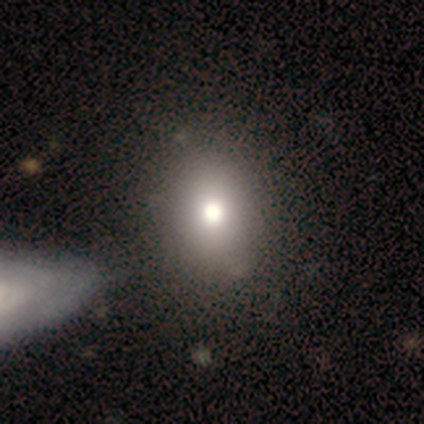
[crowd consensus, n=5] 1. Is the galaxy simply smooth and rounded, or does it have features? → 80% smooth, 20% star or artifact, 0% featured or disk.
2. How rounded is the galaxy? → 75% in between, 25% round, 0% cigar-shaped.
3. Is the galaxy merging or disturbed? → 100% none, 0% minor disturbance, 0% major disturbance, 0% merger.